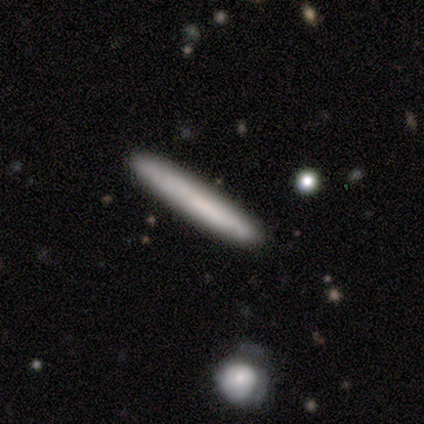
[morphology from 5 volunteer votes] type=smooth (100%); roundness=cigar-shaped (100%); merging=none (100%).